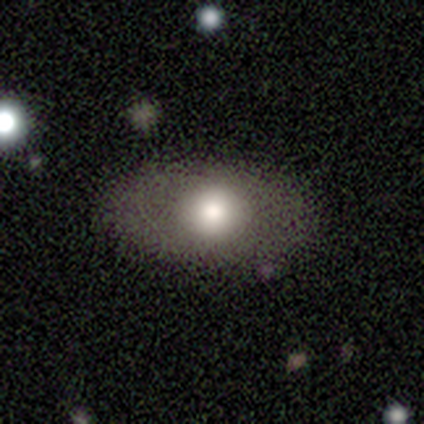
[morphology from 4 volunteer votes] smooth-or-featured: featured or disk: 50% | smooth: 25% | star or artifact: 25%
  disk-edge-on: yes: 50% (tied) | no: 50% (tied)
    edge-on-bulge: rounded: 100% | boxy: 0% | none: 0%
  merging: none: 100% | minor disturbance: 0% | major disturbance: 0% | merger: 0%